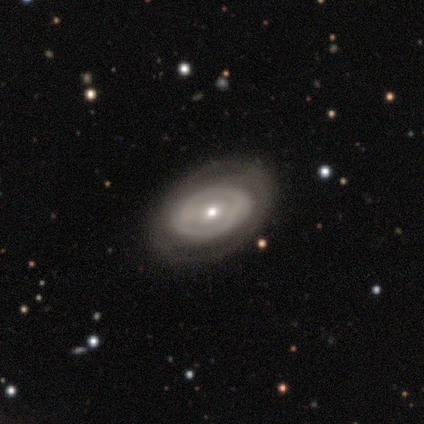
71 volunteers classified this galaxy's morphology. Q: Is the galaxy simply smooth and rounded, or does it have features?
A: featured or disk — 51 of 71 (72%).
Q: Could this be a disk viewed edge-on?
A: no — 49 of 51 (96%).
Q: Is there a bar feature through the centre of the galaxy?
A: no — 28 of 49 (57%).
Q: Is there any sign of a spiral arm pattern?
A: no — 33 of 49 (67%).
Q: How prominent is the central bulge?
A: moderate — 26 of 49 (53%).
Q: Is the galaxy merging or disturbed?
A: none — 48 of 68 (71%).